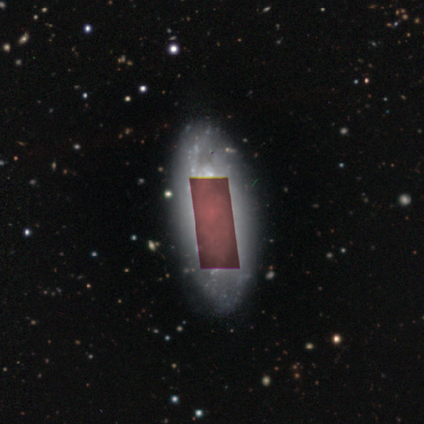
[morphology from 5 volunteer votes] type=star or artifact (60%).